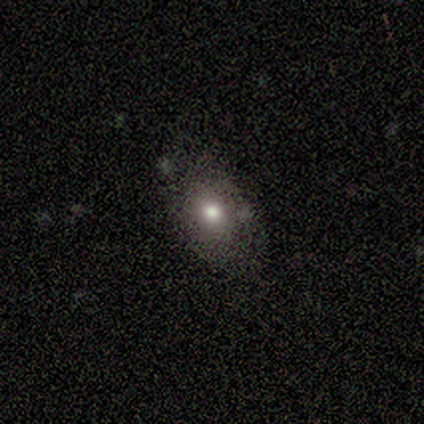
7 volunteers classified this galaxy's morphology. smooth_or_featured: smooth (p=0.71) [alt: featured or disk p=0.14]
how_rounded: in between (p=0.60) [alt: round p=0.40]
merging: none (p=0.83) [alt: minor disturbance p=0.17]